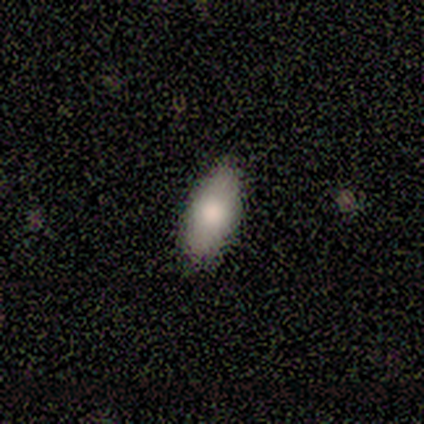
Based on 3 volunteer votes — Smooth or featured: smooth — 67% (star or artifact — 33%)
How rounded: in between — 100%
Merging: none — 100%